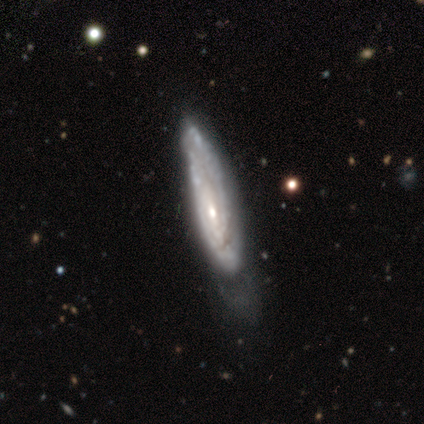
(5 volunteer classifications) Smooth or featured?
  - featured or disk: 80% *
  - smooth: 20%
  - star or artifact: 0%
Edge-on disk?
  - yes: 75% *
  - no: 25%
Edge-on bulge?
  - boxy: 33% * (tied)
  - none: 33% * (tied)
  - rounded: 33% * (tied)
Merging?
  - none: 60% *
  - minor disturbance: 40%
  - major disturbance: 0%
  - merger: 0%